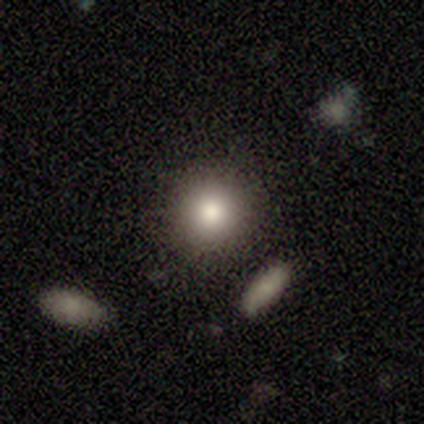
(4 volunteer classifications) This is likely a smooth galaxy (75%). How rounded: clearly round (100%). Merging: likely none (75%).